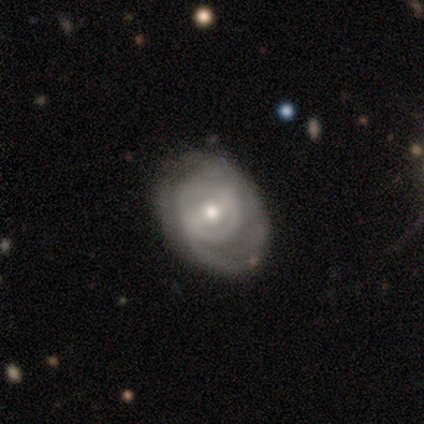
Morphology: type=featured or disk (100%); edge-on=no (100%); bar=strong (60%); spiral arms=yes (80%); winding=tight (75%); arm count=1 (50%); bulge=moderate (40%, tied with small); merging=none (100%).